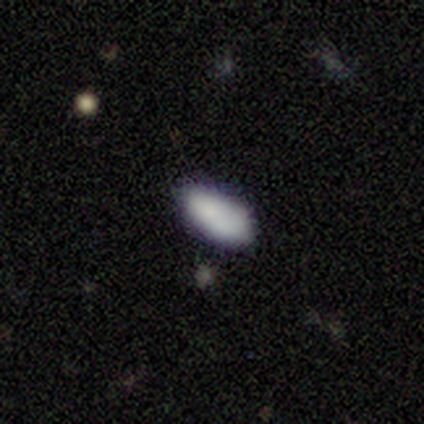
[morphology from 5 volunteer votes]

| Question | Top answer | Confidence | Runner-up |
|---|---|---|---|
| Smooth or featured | smooth | 100% | — |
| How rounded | in between | 100% | — |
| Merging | none | 100% | — |